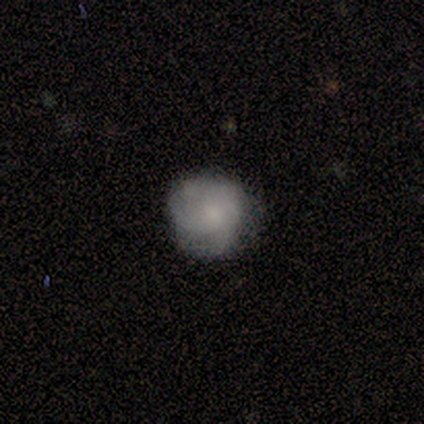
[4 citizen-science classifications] This is clearly a smooth galaxy (100%). How rounded: likely round (75%). Merging: likely none (75%).